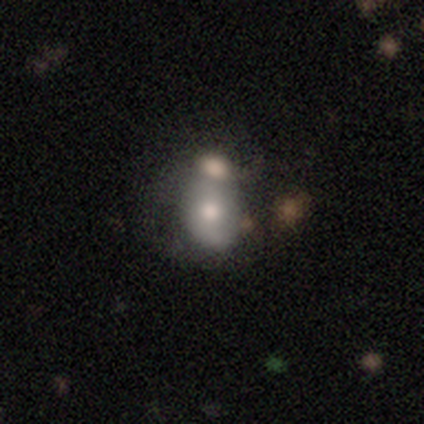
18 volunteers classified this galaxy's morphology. Q: Smooth or featured?
A: smooth (67%); runner-up: featured or disk (33%)
Q: How rounded?
A: in between (83%); runner-up: round (17%)
Q: Merging?
A: merger (61%); runner-up: none (28%)